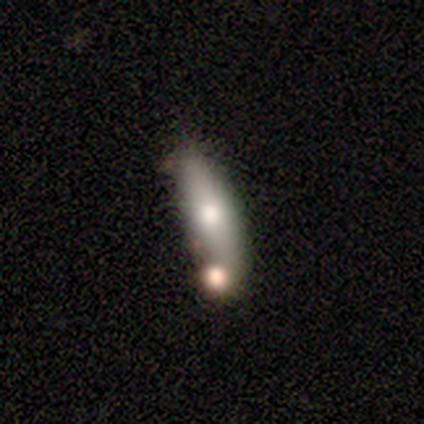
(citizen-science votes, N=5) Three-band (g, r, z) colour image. It shows a smooth galaxy with no disk features (60%) that is in between round and cigar-shaped (67%). Merging: none (100%).